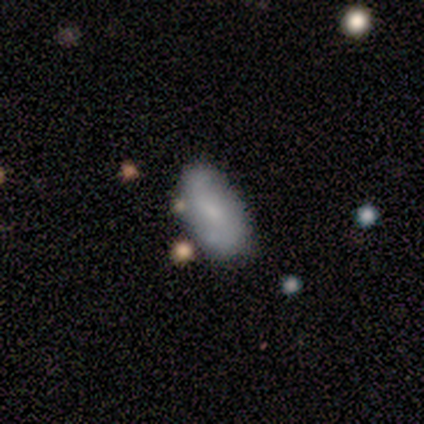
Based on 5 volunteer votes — Overall: smooth (80%). How rounded: in between (100%). Merging: none (60%; minor disturbance 40%).